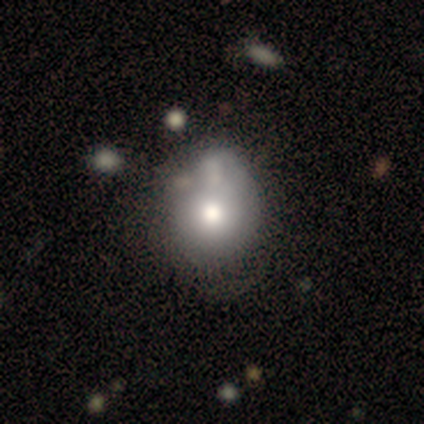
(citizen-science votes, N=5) Smooth or featured? smooth (40%, tied with featured or disk)
How rounded? in between (100%)
Merging? none (50%)